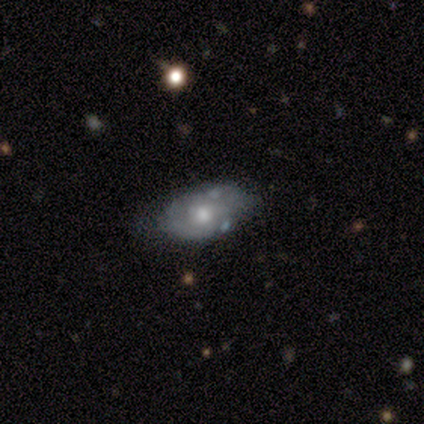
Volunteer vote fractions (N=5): smooth_or_featured: featured or disk (p=0.60) [alt: smooth p=0.40]
disk_edge_on: no (p=1.00)
bar: no (p=1.00)
has_spiral_arms: no (p=0.67) [alt: yes p=0.33]
bulge_size: small (p=0.67) [alt: moderate p=0.33]
merging: minor disturbance (p=0.80) [alt: none p=0.20]